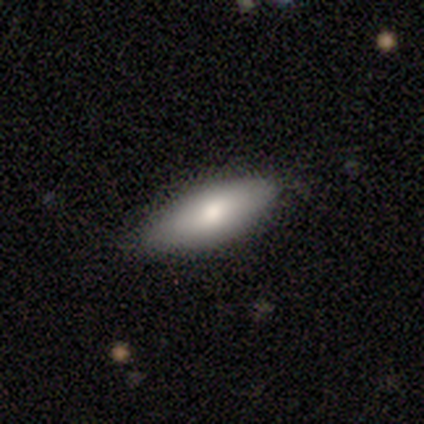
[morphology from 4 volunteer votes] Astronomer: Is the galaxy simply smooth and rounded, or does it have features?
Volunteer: smooth — 75%.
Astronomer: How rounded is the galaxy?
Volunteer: in between — 100%.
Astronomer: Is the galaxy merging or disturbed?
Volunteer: none — 50%.